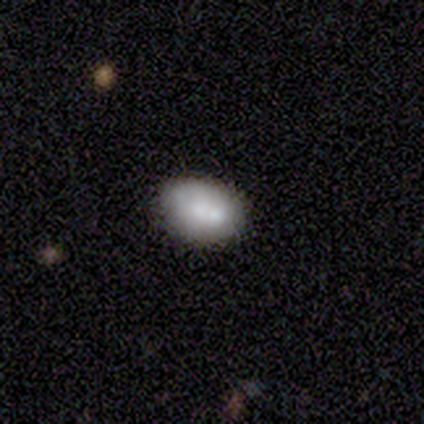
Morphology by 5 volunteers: A smooth galaxy with no disk features (100%) that is in between round and cigar-shaped (100%).

Vote fractions:
- Smooth or featured? smooth: 100% / featured or disk: 0% / star or artifact: 0%
- How rounded? in between: 100% / round: 0% / cigar-shaped: 0%
- Merging? none: 80% / minor disturbance: 20% / major disturbance: 0% / merger: 0%